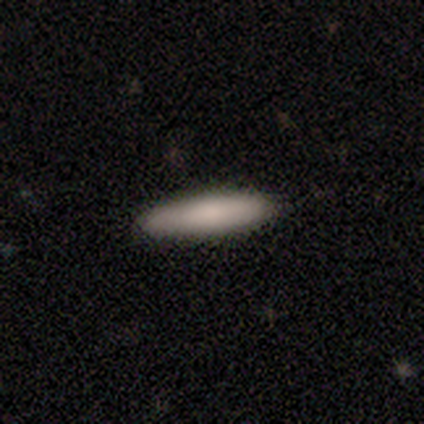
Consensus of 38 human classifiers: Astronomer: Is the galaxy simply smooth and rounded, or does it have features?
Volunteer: smooth — 74%.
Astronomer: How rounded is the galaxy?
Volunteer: cigar-shaped — 82%.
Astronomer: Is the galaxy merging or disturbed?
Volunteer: none — 86%.